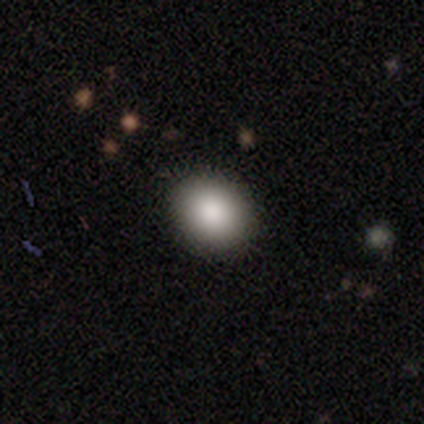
Volunteers were most divided on "how rounded": in between: 60%, round: 40%, cigar-shaped: 0%. More confident: merging — none (100%); smooth or featured — smooth (83%).